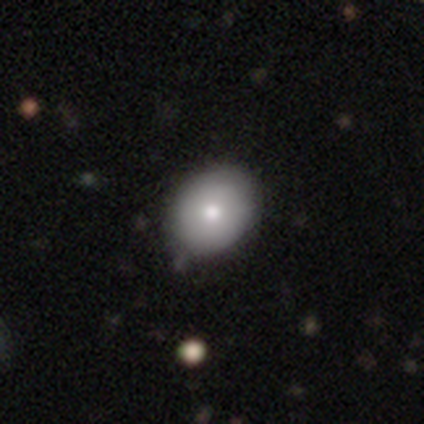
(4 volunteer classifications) Smooth or featured?
  - smooth: 75% *
  - featured or disk: 25%
  - star or artifact: 0%
How rounded?
  - in between: 67% *
  - round: 33%
  - cigar-shaped: 0%
Merging?
  - none: 75% *
  - minor disturbance: 25%
  - major disturbance: 0%
  - merger: 0%